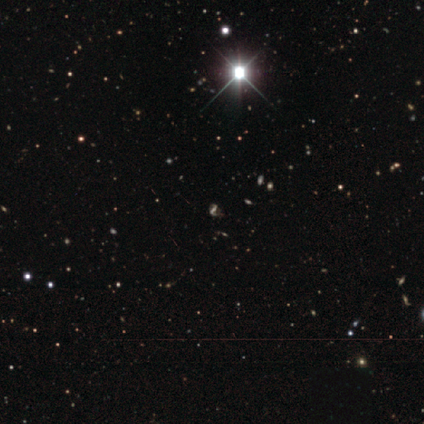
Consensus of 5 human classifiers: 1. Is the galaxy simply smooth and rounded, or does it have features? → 60% featured or disk, 40% star or artifact, 0% smooth.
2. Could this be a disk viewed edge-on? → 100% no, 0% yes.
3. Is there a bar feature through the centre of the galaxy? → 67% strong, 33% weak, 0% no.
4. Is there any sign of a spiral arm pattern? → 67% yes, 33% no.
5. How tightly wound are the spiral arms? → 100% loose, 0% tight, 0% medium.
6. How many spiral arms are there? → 100% 2, 0% 1, 0% 3, 0% 4, 0% more than 4, 0% can't tell.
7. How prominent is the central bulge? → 67% moderate, 33% none, 0% dominant, 0% large, 0% small.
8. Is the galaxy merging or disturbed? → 33% none (tied), 33% minor disturbance (tied), 33% major disturbance (tied), 0% merger.